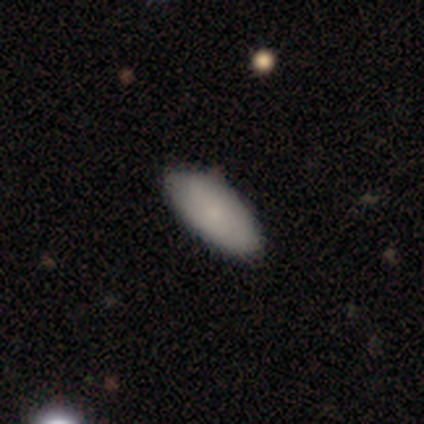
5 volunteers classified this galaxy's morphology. Overall: smooth (60%; featured or disk 40%). How rounded: in between (100%). Merging: none (80%).